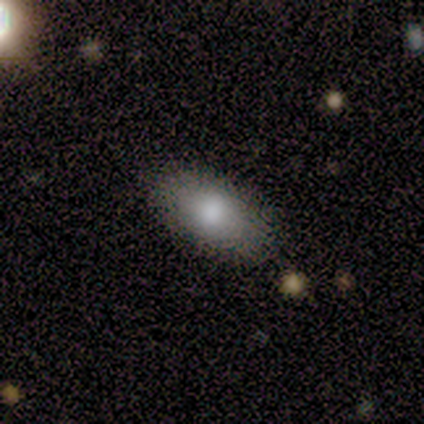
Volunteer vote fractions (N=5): This appears to be a smooth galaxy with no disk features (100%) that is in between round and cigar-shaped (80%). Merging: none (60%).